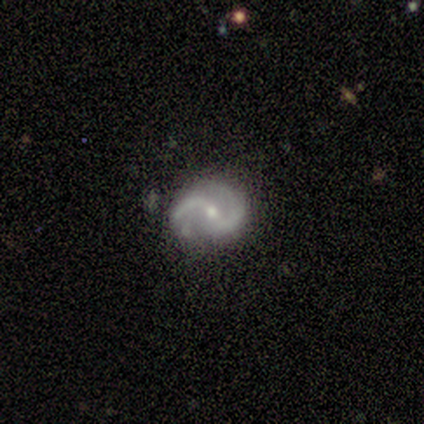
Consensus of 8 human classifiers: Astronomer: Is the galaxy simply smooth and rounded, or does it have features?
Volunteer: featured or disk — 100%.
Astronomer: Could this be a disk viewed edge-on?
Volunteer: no — 100%.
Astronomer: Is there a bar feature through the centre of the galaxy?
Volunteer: weak — 75%.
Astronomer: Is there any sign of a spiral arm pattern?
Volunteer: yes — 100%.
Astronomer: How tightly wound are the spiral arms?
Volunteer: loose — 50% (runner-up: medium, 38%).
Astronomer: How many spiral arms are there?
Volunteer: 2 — 100%.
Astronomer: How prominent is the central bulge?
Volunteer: small — 62%.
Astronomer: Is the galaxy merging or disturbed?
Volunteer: none — 50%, tied with minor disturbance at 50%.